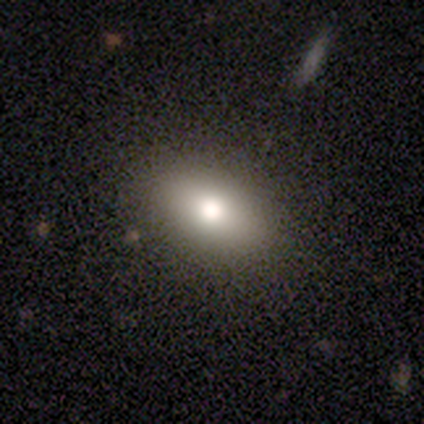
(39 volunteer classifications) Smooth or featured?
  - smooth: 79% *
  - featured or disk: 10%
  - star or artifact: 10%
How rounded?
  - in between: 90% *
  - round: 10%
  - cigar-shaped: 0%
Merging?
  - none: 83% *
  - major disturbance: 3%
  - minor disturbance: 0%
  - merger: 0%